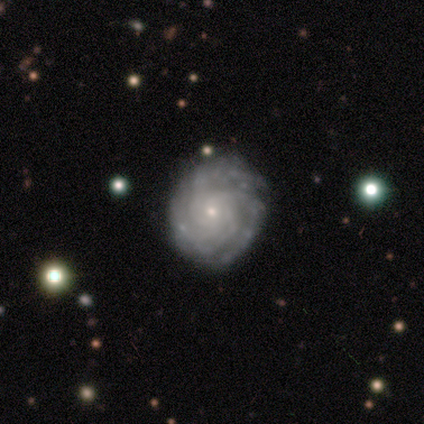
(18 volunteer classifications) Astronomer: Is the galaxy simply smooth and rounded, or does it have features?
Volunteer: featured or disk — 78%.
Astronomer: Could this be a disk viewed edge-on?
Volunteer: no — 100%.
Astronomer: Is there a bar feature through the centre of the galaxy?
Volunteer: no — 93%.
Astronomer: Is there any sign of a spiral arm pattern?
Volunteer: yes — 93%.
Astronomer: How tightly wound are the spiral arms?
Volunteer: tight — 69%.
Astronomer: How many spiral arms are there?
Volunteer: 3 — 62%.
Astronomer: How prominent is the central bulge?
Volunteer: small — 93%.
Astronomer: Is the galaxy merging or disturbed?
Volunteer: none — 29% (runner-up: minor disturbance, 18%).